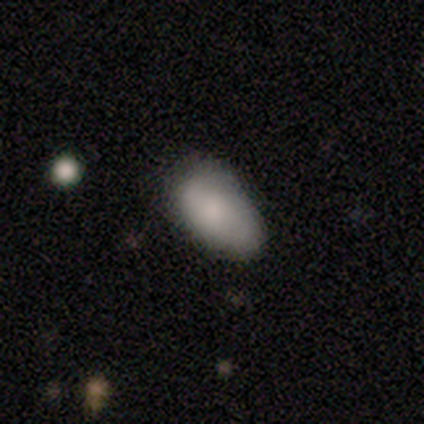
This appears to be a smooth galaxy with no disk features (80%) that is in between round and cigar-shaped (100%). Merging: none (100%).